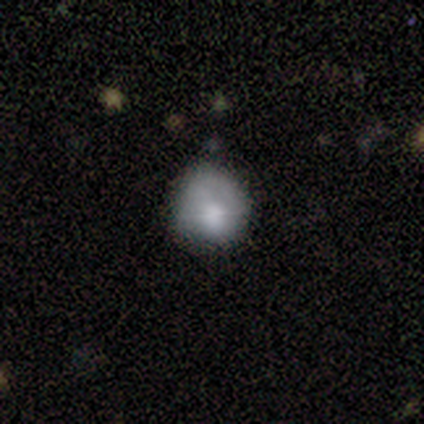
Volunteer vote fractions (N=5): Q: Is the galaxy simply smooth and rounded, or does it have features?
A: smooth — 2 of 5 (40%, tied with star or artifact).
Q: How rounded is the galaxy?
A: round — 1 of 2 (50%, tied with in between).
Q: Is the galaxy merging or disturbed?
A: none — 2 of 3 (67%).